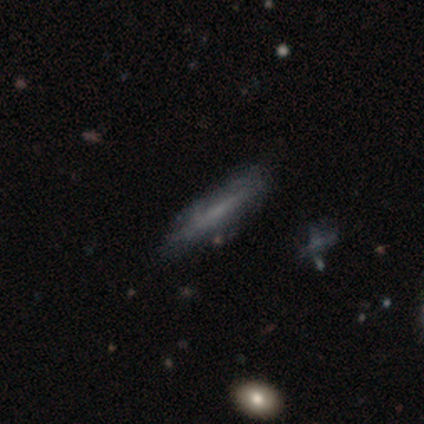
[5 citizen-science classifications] smooth_or_featured: featured or disk (p=0.60) [alt: smooth p=0.20]
disk_edge_on: yes (p=0.67) [alt: no p=0.33]
edge_on_bulge: boxy (p=0.50) [tied with: rounded p=0.50]
merging: none (p=0.50) [alt: minor disturbance p=0.25]